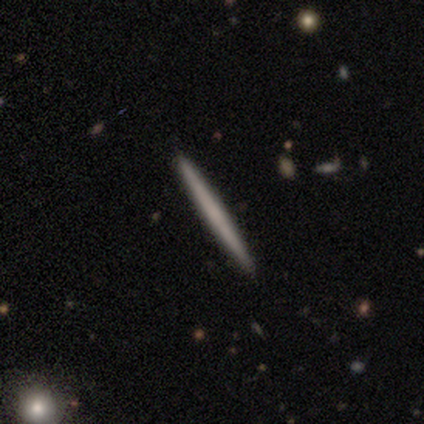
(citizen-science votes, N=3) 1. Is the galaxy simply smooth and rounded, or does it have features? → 67% featured or disk, 33% smooth, 0% star or artifact.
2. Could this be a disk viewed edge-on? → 100% yes, 0% no.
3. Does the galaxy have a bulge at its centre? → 100% none, 0% boxy, 0% rounded.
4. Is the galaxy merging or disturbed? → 100% none, 0% minor disturbance, 0% major disturbance, 0% merger.